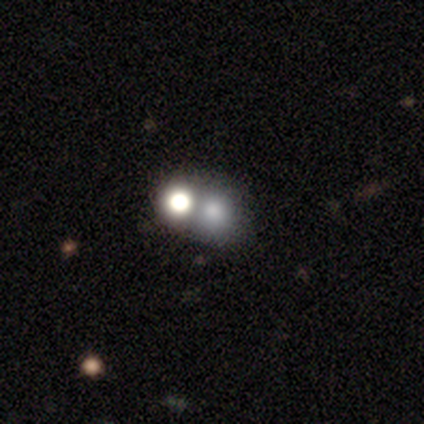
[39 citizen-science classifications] Morphology: type=smooth (79%); roundness=round (84%); merging=none (43%, tied with merger).